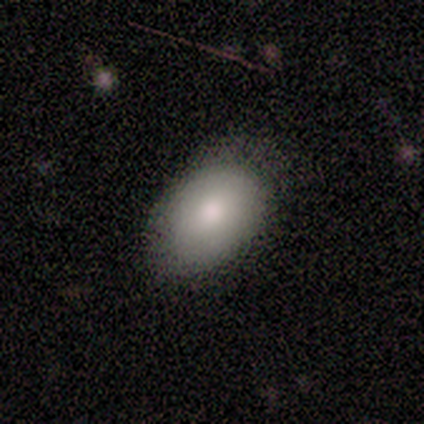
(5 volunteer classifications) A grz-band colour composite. It shows a smooth galaxy with no disk features (100%) that is in between round and cigar-shaped (100%). Merging: none (60%).